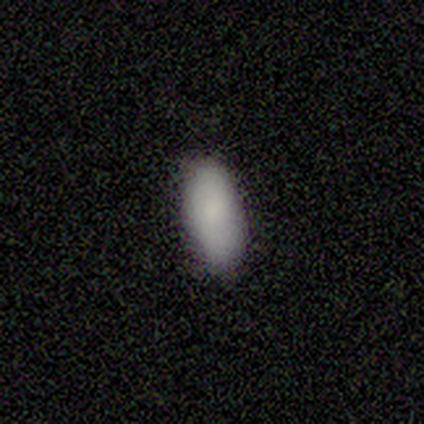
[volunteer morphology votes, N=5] A smooth galaxy with no disk features (100%) that is in between round and cigar-shaped (100%).

Vote fractions:
- Smooth or featured? smooth: 100% / featured or disk: 0% / star or artifact: 0%
- How rounded? in between: 100% / round: 0% / cigar-shaped: 0%
- Merging? none: 100% / minor disturbance: 0% / major disturbance: 0% / merger: 0%